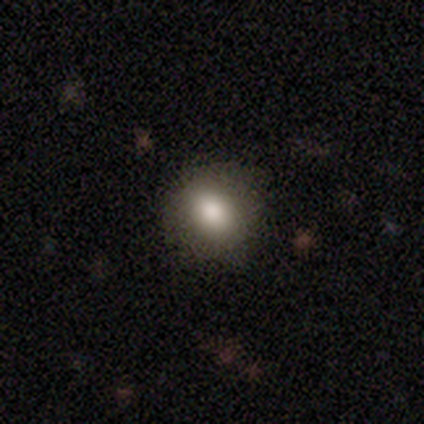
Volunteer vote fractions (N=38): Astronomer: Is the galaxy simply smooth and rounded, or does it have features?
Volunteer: smooth — 89%.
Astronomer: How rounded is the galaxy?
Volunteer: round — 74%.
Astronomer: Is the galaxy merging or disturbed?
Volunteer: none — 86%.